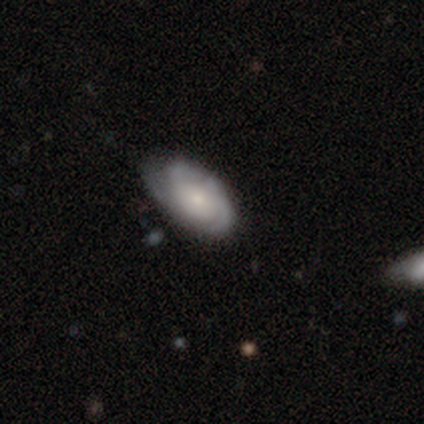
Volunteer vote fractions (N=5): smooth_or_featured: featured or disk (p=0.80) [alt: smooth p=0.20]
disk_edge_on: no (p=1.00)
bar: no (p=0.75) [alt: weak p=0.25]
has_spiral_arms: yes (p=0.75) [alt: no p=0.25]
spiral_winding: medium (p=0.67) [alt: loose p=0.33]
spiral_arm_count: 2 (p=0.33) [tied with: 3 p=0.33, can't tell p=0.33]
bulge_size: large (p=0.25) [tied with: moderate p=0.25, small p=0.25, none p=0.25]
merging: none (p=0.80) [alt: minor disturbance p=0.20]